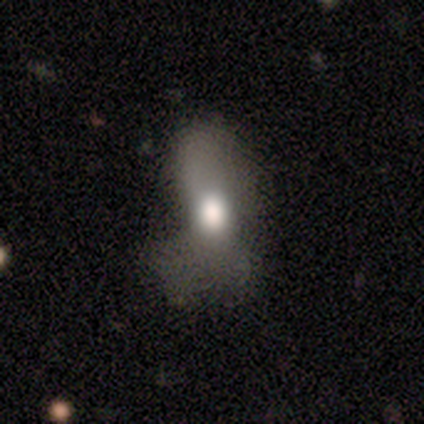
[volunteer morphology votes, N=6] Smooth or featured?
  - smooth: 50% * (tied)
  - featured or disk: 50% * (tied)
  - star or artifact: 0%
How rounded?
  - in between: 67% *
  - cigar-shaped: 33%
  - round: 0%
Merging?
  - none: 33% * (tied)
  - minor disturbance: 33% * (tied)
  - major disturbance: 33% * (tied)
  - merger: 0%